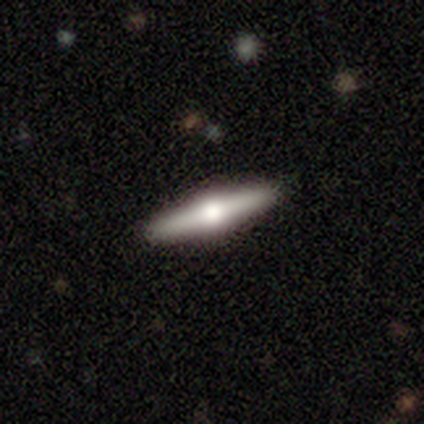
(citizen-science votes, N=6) Smooth or featured: smooth — 50% (tied with featured or disk — 50%)
How rounded: cigar-shaped — 67% (in between — 33%)
Merging: none — 83% (minor disturbance — 17%)